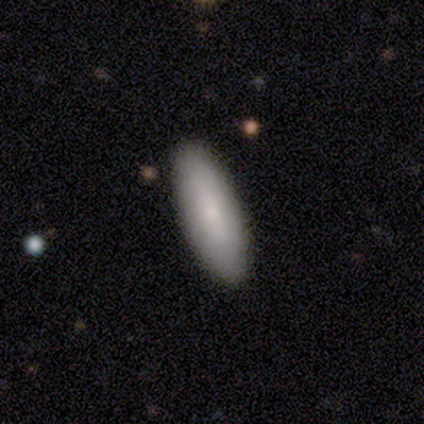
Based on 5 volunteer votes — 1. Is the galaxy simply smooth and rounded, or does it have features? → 100% smooth, 0% featured or disk, 0% star or artifact.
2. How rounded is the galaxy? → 80% in between, 20% cigar-shaped, 0% round.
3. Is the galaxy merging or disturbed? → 80% none, 20% minor disturbance, 0% major disturbance, 0% merger.